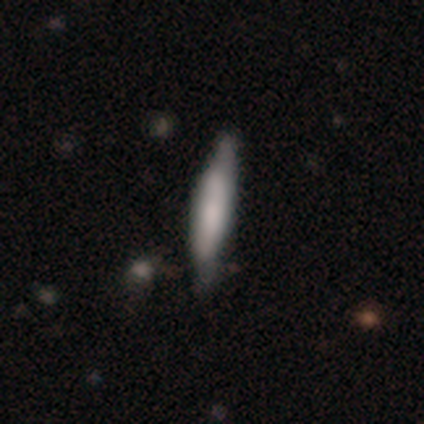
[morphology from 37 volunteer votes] smooth-or-featured: smooth: 65% | featured or disk: 30% | star or artifact: 5%
  how-rounded: cigar-shaped: 88% | in between: 12% | round: 0%
  merging: none: 66% | minor disturbance: 29% | major disturbance: 6% | merger: 0%